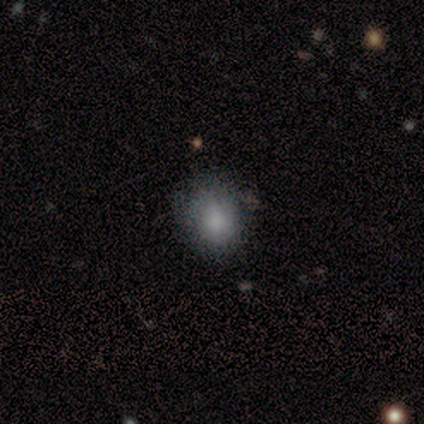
smooth 88%, star or artifact 12%, featured or disk 0%. Down the decision tree: how rounded — round (57%); merging — none (43%, tied with minor disturbance).